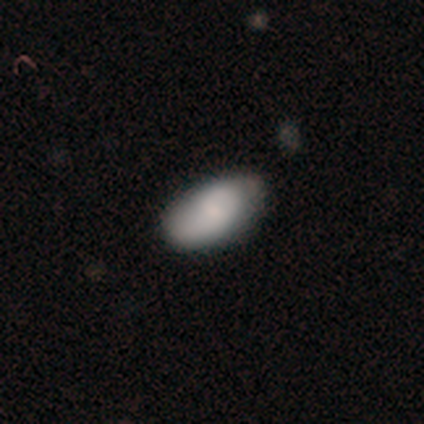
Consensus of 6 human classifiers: Morphology: type=smooth (67%); roundness=in between (100%); merging=none (50%, tied with minor disturbance).